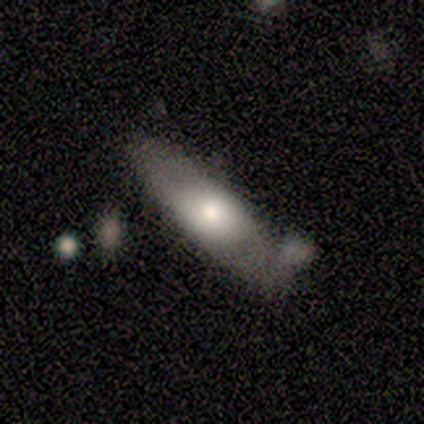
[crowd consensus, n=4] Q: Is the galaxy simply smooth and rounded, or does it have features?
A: smooth — 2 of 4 (50%, tied with featured or disk).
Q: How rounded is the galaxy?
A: cigar-shaped — 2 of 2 (100%).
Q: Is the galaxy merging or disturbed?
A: none — 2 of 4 (50%).